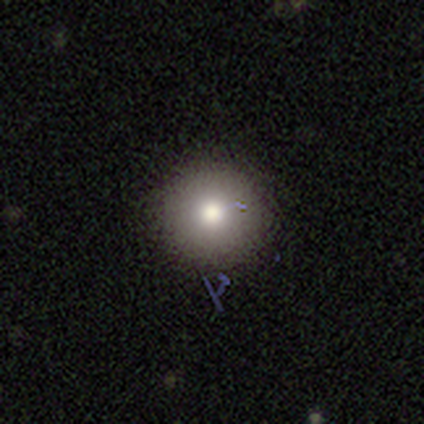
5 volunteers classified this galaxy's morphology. smooth-or-featured: smooth: 80% | featured or disk: 20% | star or artifact: 0%
  how-rounded: round: 100% | in between: 0% | cigar-shaped: 0%
  merging: none: 80% | minor disturbance: 20% | major disturbance: 0% | merger: 0%